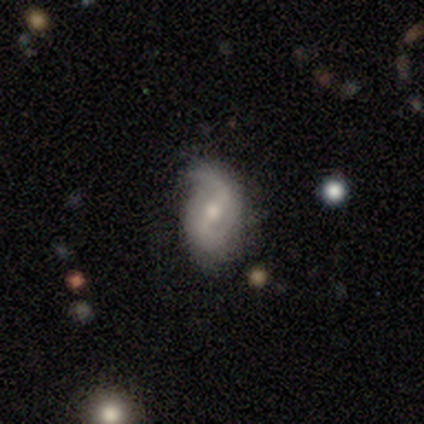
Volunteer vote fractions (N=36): A featured or disk galaxy (72%) with a weak bar (48%), 2 (88%) loose (58%) spiral arms (96%) and a moderate central bulge (64%).

Vote fractions:
- Smooth or featured? featured or disk: 72% / smooth: 17% / star or artifact: 11%
- Edge-on disk? no: 96% / yes: 4%
- Bar? weak: 48% / strong: 32% / no: 20%
- Spiral arms? yes: 96% / no: 4%
- Spiral winding? loose: 58% / medium: 38% / tight: 4%
- Spiral arm count? 2: 88% / 1: 8% / can't tell: 4% / 3: 0% / 4: 0% / more than 4: 0%
- Bulge size? moderate: 64% / small: 32% / large: 4% / dominant: 0% / none: 0%
- Merging? none: 72% / minor disturbance: 25% / major disturbance: 3% / merger: 0%